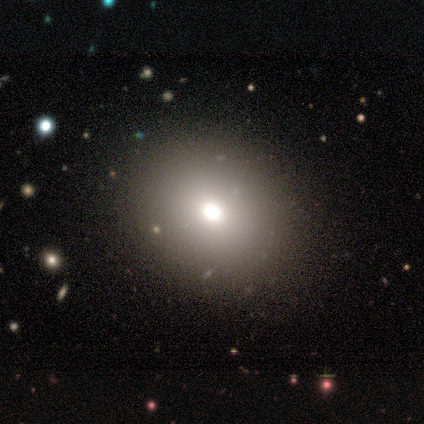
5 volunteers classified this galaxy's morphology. smooth-or-featured: smooth: 80% | star or artifact: 20% | featured or disk: 0%
  how-rounded: round: 100% | in between: 0% | cigar-shaped: 0%
  merging: none: 100% | minor disturbance: 0% | major disturbance: 0% | merger: 0%